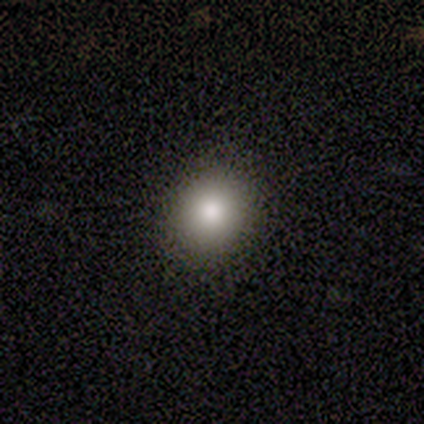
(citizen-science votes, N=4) smooth-or-featured: smooth: 100% | featured or disk: 0% | star or artifact: 0%
  how-rounded: round: 50% (tied) | in between: 50% (tied) | cigar-shaped: 0%
  merging: none: 75% | minor disturbance: 25% | major disturbance: 0% | merger: 0%